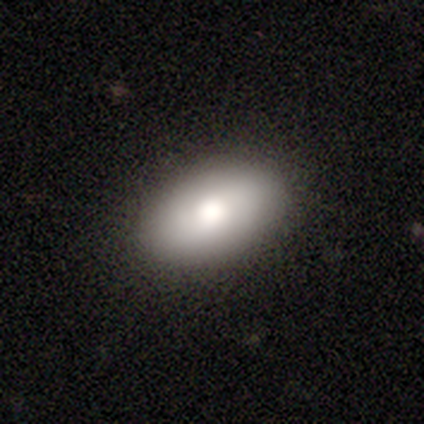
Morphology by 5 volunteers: type=smooth (80%); roundness=in between (100%); merging=none (60%).